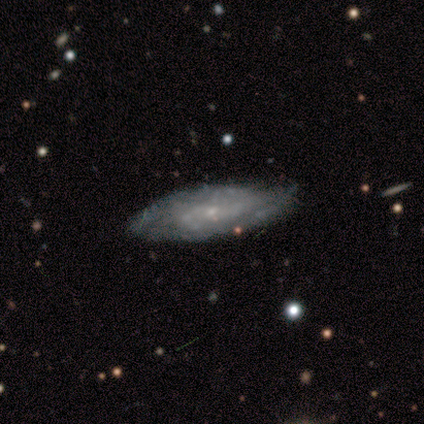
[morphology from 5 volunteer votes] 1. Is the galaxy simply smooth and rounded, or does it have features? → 80% featured or disk, 20% smooth, 0% star or artifact.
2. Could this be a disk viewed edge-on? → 75% no, 25% yes.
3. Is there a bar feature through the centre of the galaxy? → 67% no, 33% weak, 0% strong.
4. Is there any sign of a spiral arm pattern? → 67% no, 33% yes.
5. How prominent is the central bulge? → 67% small, 33% none, 0% dominant, 0% large, 0% moderate.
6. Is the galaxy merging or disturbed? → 80% minor disturbance, 20% none, 0% major disturbance, 0% merger.